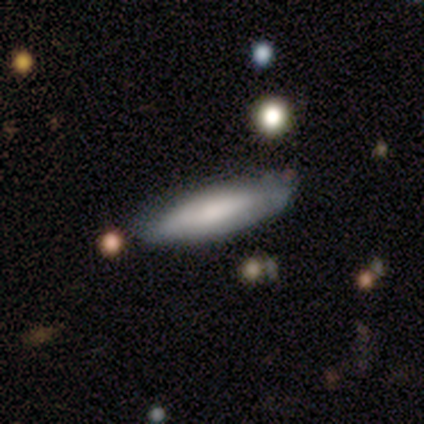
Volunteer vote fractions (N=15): smooth-or-featured: smooth: 80% | featured or disk: 20% | star or artifact: 0%
  how-rounded: in between: 50% (tied) | cigar-shaped: 50% (tied) | round: 0%
  merging: none: 87% | minor disturbance: 13% | major disturbance: 0% | merger: 0%